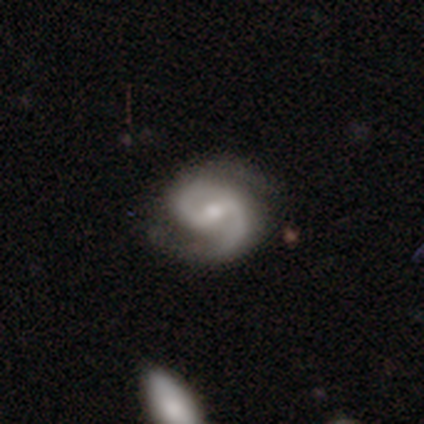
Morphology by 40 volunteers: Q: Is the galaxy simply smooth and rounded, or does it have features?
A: featured or disk — 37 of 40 (92%).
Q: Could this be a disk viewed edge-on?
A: no — 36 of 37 (97%).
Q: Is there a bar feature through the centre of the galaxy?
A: weak — 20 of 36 (56%).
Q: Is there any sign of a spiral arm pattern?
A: yes — 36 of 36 (100%).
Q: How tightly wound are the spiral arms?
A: medium — 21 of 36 (58%).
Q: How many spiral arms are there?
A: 2 — 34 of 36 (94%).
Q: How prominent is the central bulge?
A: moderate — 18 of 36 (50%).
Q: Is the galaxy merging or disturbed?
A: none — 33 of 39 (85%).